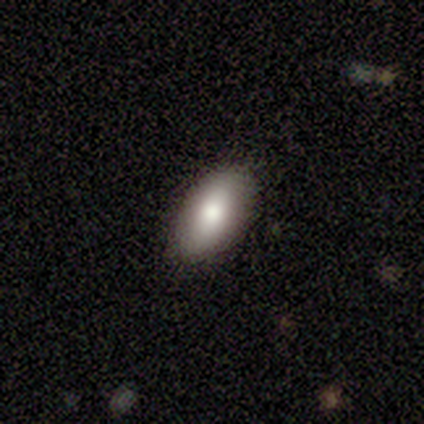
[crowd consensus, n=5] A smooth galaxy with no disk features (60%) that is in between round and cigar-shaped (100%). Merging: none (75%).